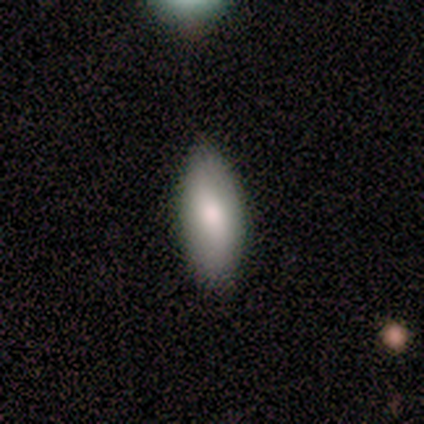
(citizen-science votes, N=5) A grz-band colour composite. It shows a smooth galaxy with no disk features (100%) that is in between round and cigar-shaped (100%). Merging: none (100%).